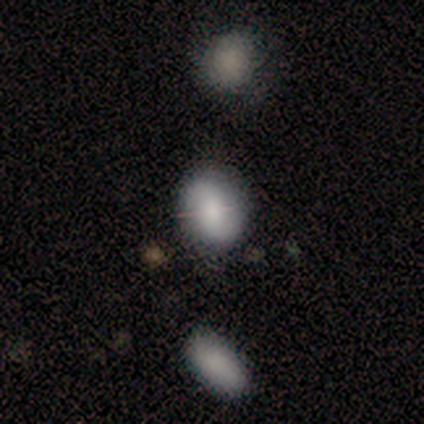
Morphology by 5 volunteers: This is clearly a smooth galaxy (80%). How rounded: possibly round (50%, tied with in between). Merging: clearly none (80%).